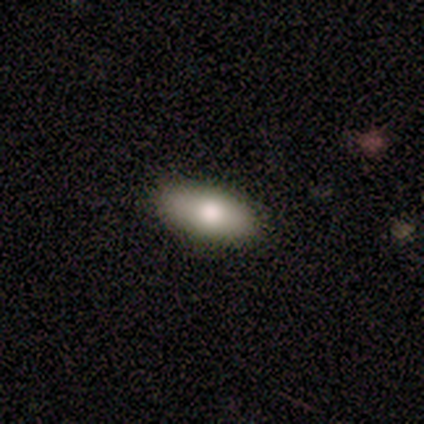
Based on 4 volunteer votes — Smooth or featured? 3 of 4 (75%) said smooth. How rounded? 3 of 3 (100%) said in between. Merging? 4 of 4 (100%) said none.